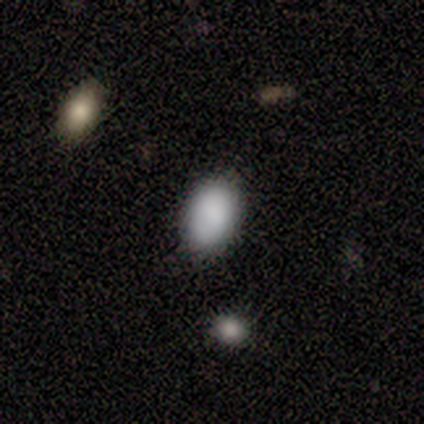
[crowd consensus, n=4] Smooth or featured? smooth (100%)
How rounded? in between (100%)
Merging? none (100%)